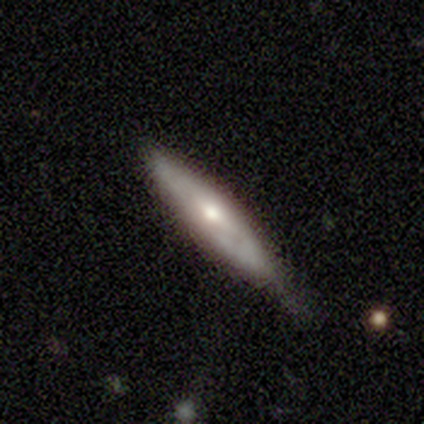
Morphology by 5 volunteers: Smooth or featured? smooth (60%)
How rounded? cigar-shaped (100%)
Merging? minor disturbance (80%)